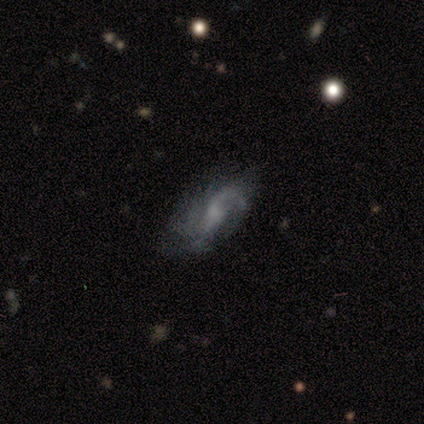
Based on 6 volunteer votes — Smooth or featured? 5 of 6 (83%) said featured or disk. Edge-on disk? 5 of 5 (100%) said no. Bar? 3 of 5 (60%) said weak. Spiral arms? 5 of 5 (100%) said yes. Spiral winding? 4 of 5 (80%) said medium. Spiral arm count? 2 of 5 (40%, tied with 3) said 2. Bulge size? 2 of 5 (40%, tied with small) said moderate. Merging? 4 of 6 (67%) said none.